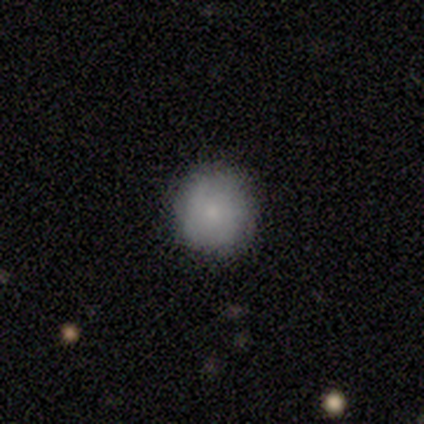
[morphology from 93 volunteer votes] Smooth or featured: smooth — 74% (featured or disk — 18%)
How rounded: round — 96% (in between — 4%)
Merging: none — 83% (minor disturbance — 13%)